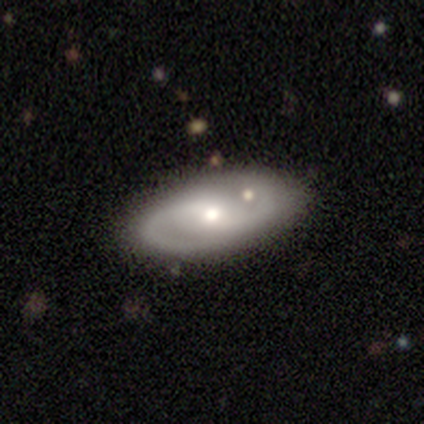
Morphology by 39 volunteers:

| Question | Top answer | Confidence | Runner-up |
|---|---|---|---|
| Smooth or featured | featured or disk | 79% | smooth (15%) |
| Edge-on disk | no | 94% | yes (6%) |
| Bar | weak | 45% | tied: no (45%) |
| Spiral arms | yes | 93% | no (7%) |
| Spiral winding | medium | 70% | tight (19%) |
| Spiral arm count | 2 | 96% | can't tell (4%) |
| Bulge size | moderate | 62% | small (34%) |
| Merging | none | 73% | merger (14%) |